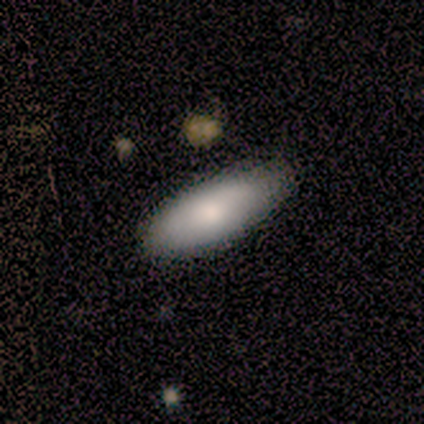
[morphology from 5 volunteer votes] This is clearly a smooth galaxy (100%). How rounded: clearly in between (100%). Merging: clearly none (80%).